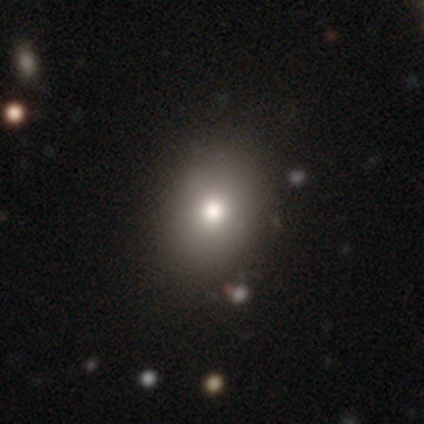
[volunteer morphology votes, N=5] smooth 60%, featured or disk 20%, star or artifact 20%. Down the decision tree: how rounded — in between (100%); merging — none (75%).